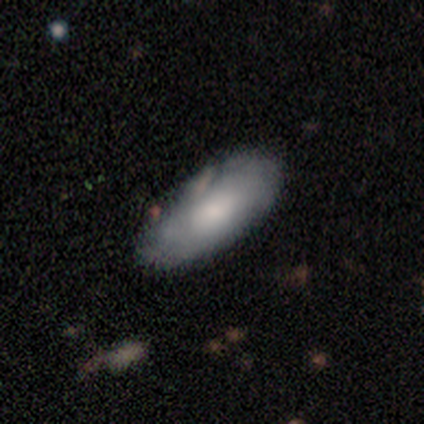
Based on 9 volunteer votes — A featured or disk galaxy (56%) with no bar (100%), tight (67%) spiral arms (75%) and a large central bulge (50%).

Vote fractions:
- Smooth or featured? featured or disk: 56% / smooth: 44% / star or artifact: 0%
- Edge-on disk? no: 80% / yes: 20%
- Bar? no: 100% / strong: 0% / weak: 0%
- Spiral arms? yes: 75% / no: 25%
- Spiral winding? tight: 67% / medium: 33% / loose: 0%
- Spiral arm count? can't tell: 67% / 2: 33% / 1: 0% / 3: 0% / 4: 0% / more than 4: 0%
- Bulge size? large: 50% / moderate: 25% / small: 25% / dominant: 0% / none: 0%
- Merging? none: 56% / minor disturbance: 22% / major disturbance: 22% / merger: 0%